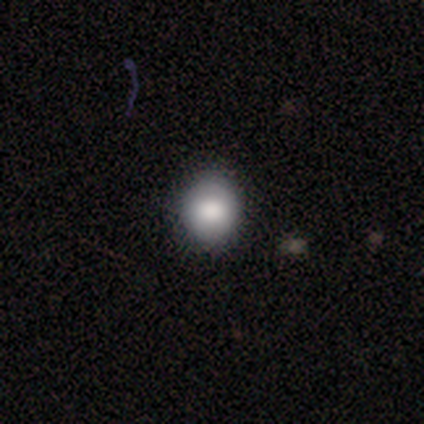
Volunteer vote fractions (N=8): This is likely a smooth galaxy (62%). How rounded: clearly round (100%). Merging: clearly none (83%).